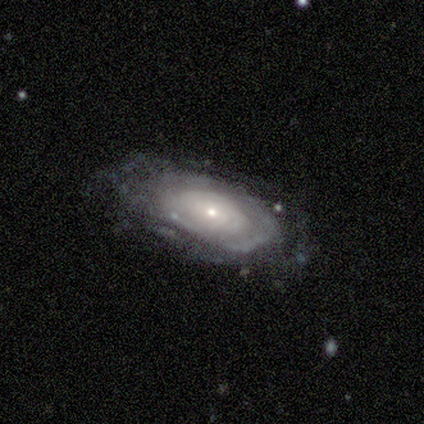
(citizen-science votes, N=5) Smooth or featured?
  - featured or disk: 80% *
  - smooth: 20%
  - star or artifact: 0%
Edge-on disk?
  - no: 100% *
  - yes: 0%
Bar?
  - no: 100% *
  - strong: 0%
  - weak: 0%
Spiral arms?
  - yes: 100% *
  - no: 0%
Spiral winding?
  - tight: 100% *
  - medium: 0%
  - loose: 0%
Spiral arm count?
  - can't tell: 100% *
  - 1: 0%
  - 2: 0%
  - 3: 0%
  - 4: 0%
  - more than 4: 0%
Bulge size?
  - small: 100% *
  - dominant: 0%
  - large: 0%
  - moderate: 0%
  - none: 0%
Merging?
  - none: 100% *
  - minor disturbance: 0%
  - major disturbance: 0%
  - merger: 0%